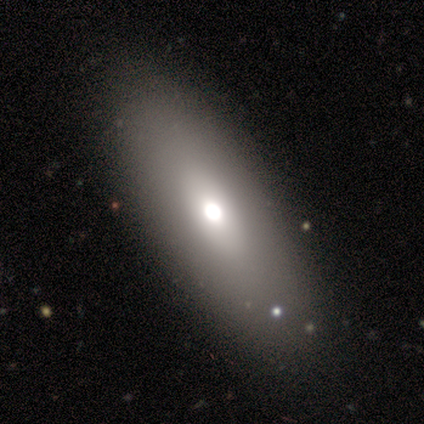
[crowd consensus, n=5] Volunteers were most divided on "smooth or featured": smooth: 60%, featured or disk: 40%, star or artifact: 0%. More confident: merging — none (100%); how rounded — in between (67%).